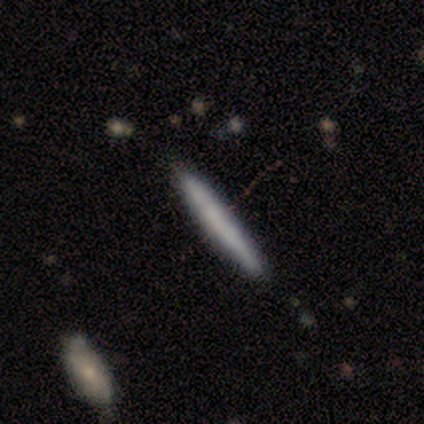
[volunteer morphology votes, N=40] This appears to be a smooth galaxy with no disk features (60%) that is cigar-shaped (100%). Merging: none (85%).